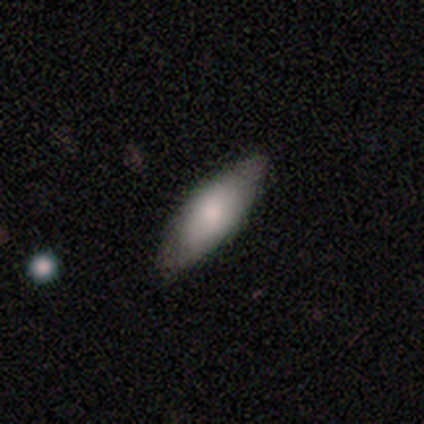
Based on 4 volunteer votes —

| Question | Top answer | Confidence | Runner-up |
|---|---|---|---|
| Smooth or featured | smooth | 75% | star or artifact (25%) |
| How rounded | in between | 100% | — |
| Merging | none | 100% | — |